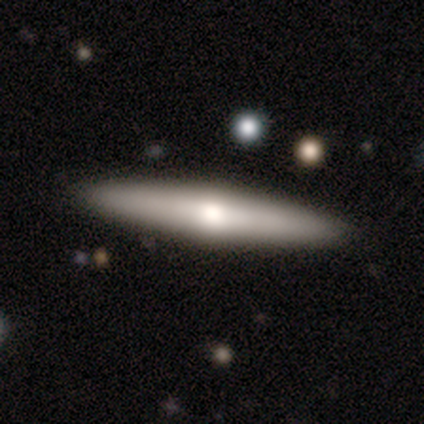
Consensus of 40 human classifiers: Smooth or featured? 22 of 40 (55%) said featured or disk. Edge-on disk? 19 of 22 (86%) said yes. Edge-on bulge? 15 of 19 (79%) said rounded. Merging? 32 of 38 (84%) said none.